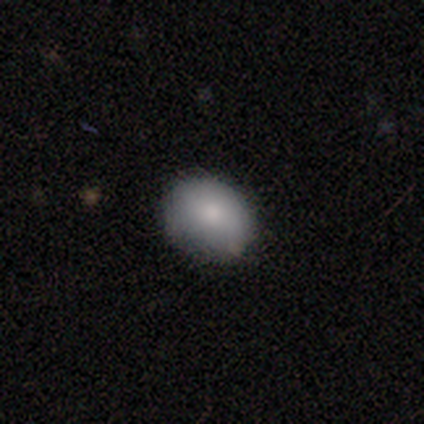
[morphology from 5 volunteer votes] Volunteers were most divided on "how rounded" (2-way tie): round: 50%, in between: 50%, cigar-shaped: 0%. More confident: smooth or featured — smooth (80%); merging — none (75%).